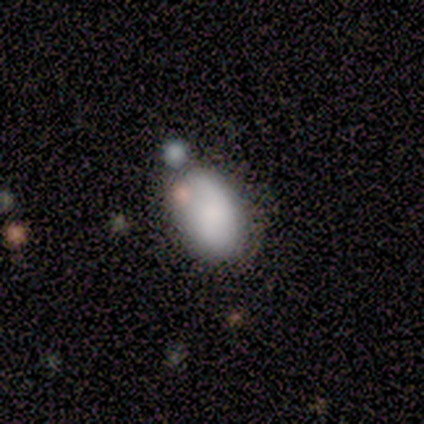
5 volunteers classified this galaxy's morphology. smooth_or_featured: smooth (p=0.80) [alt: featured or disk p=0.20]
how_rounded: round (p=0.50) [tied with: in between p=0.50]
merging: minor disturbance (p=0.40) [alt: none p=0.20]